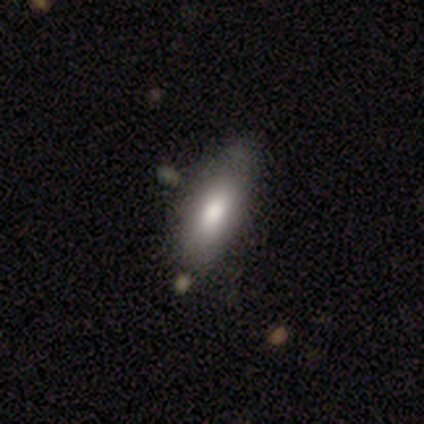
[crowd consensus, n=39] smooth 74%, featured or disk 23%, star or artifact 3%. Down the decision tree: how rounded — in between (72%); merging — none (50%).